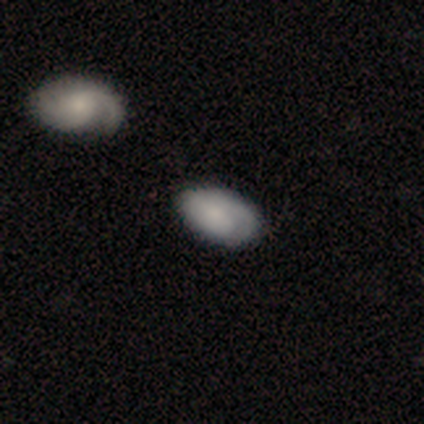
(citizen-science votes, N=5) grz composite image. It shows a smooth galaxy with no disk features (60%) that is in between round and cigar-shaped (100%). Merging: none (67%).